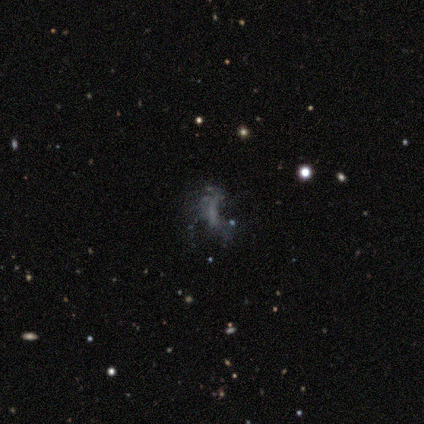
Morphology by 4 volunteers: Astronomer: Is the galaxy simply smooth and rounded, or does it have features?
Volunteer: featured or disk — 75%.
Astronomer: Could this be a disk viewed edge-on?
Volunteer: no — 100%.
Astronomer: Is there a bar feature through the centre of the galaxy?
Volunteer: no — 100%.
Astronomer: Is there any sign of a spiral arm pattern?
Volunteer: yes — 67%.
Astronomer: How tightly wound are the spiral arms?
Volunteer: loose — 100%.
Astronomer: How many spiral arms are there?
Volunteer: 1 — 50%, tied with 3 at 50%.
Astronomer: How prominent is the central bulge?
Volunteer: none — 100%.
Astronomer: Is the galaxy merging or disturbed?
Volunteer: none — 75%.